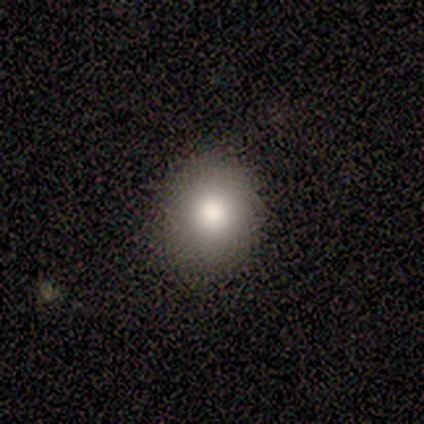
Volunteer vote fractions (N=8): Morphology: type=smooth (100%); roundness=round (75%); merging=none (88%).